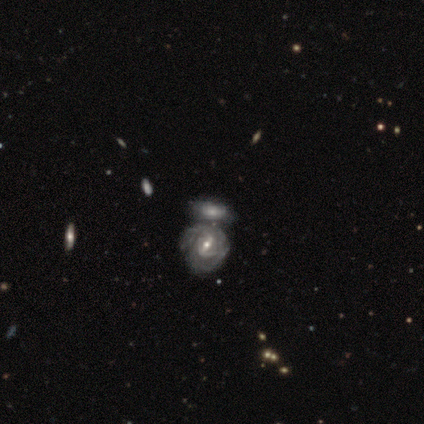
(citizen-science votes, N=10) featured or disk 90%, smooth 10%, star or artifact 0%. Down the decision tree: edge-on disk — no (100%); bar — strong (56%); spiral arms — yes (100%); spiral arm count — 2 (44%, tied with can't tell); spiral winding — tight (56%); bulge size — moderate (89%); merging — none (50%).